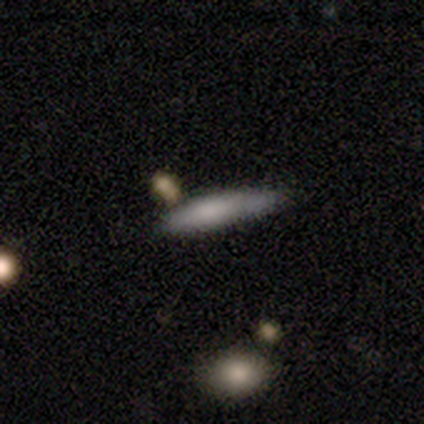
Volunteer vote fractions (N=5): smooth_or_featured: smooth (p=0.80) [alt: featured or disk p=0.20]
how_rounded: in between (p=0.50) [tied with: cigar-shaped p=0.50]
merging: none (p=0.40) [tied with: minor disturbance p=0.40]